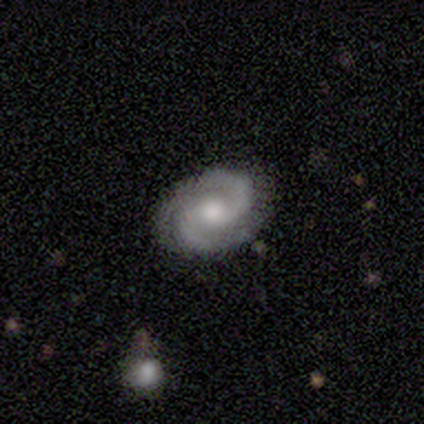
Smooth or featured: featured or disk — 100%
Edge-on disk: no — 100%
Bar: no — 75% (weak — 25%)
Spiral arms: yes — 100%
Spiral winding: tight — 50% (medium — 25%)
Spiral arm count: 2 — 75% (3 — 25%)
Bulge size: moderate — 50% (tied with small — 50%)
Merging: none — 100%